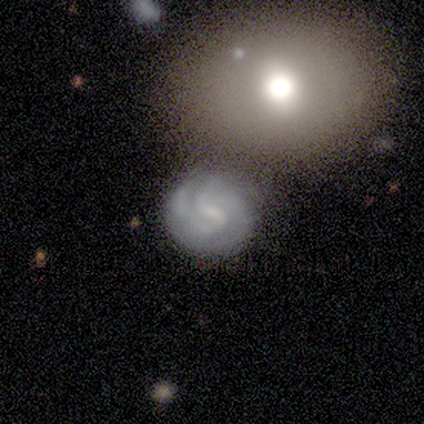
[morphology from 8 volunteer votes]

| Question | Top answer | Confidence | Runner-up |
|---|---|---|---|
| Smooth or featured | featured or disk | 75% | smooth (25%) |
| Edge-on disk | no | 100% | — |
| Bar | weak | 100% | — |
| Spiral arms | yes | 83% | no (17%) |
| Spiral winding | tight | 60% | medium (40%) |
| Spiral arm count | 2 | 60% | 4 (20%) |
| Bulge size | small | 50% | moderate (33%) |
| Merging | minor disturbance | 50% | none (38%) |